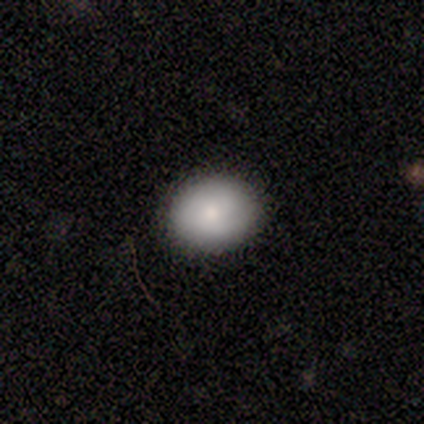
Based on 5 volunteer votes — A smooth galaxy with no disk features (100%) that is round (100%).

Vote fractions:
- Smooth or featured? smooth: 100% / featured or disk: 0% / star or artifact: 0%
- How rounded? round: 100% / in between: 0% / cigar-shaped: 0%
- Merging? none: 100% / minor disturbance: 0% / major disturbance: 0% / merger: 0%